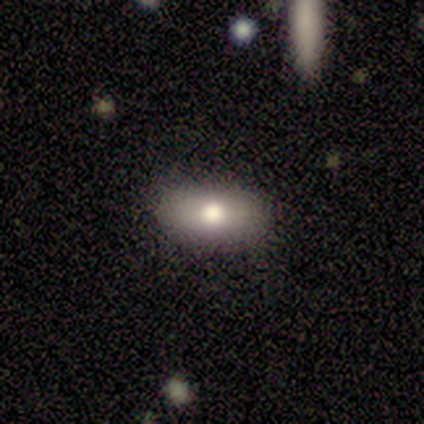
Smooth or featured?
  - smooth: 86% *
  - featured or disk: 14%
  - star or artifact: 0%
How rounded?
  - in between: 67% *
  - cigar-shaped: 33%
  - round: 0%
Merging?
  - none: 71% *
  - minor disturbance: 29%
  - major disturbance: 0%
  - merger: 0%